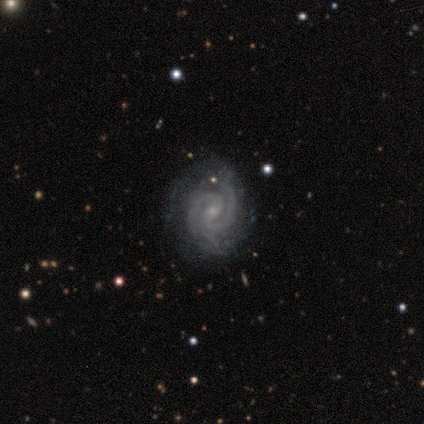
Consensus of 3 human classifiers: Morphology: type=featured or disk (100%); edge-on=no (100%); bar=no (67%); spiral arms=yes (100%); winding=tight (100%); arm count=2 (100%); bulge=small (100%); merging=none (100%).